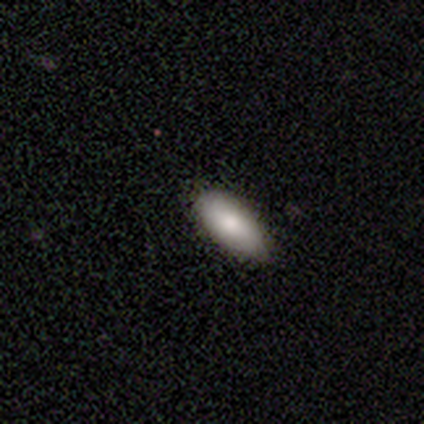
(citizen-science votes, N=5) smooth 60%, featured or disk 40%, star or artifact 0%. Down the decision tree: how rounded — in between (100%); merging — none (80%).